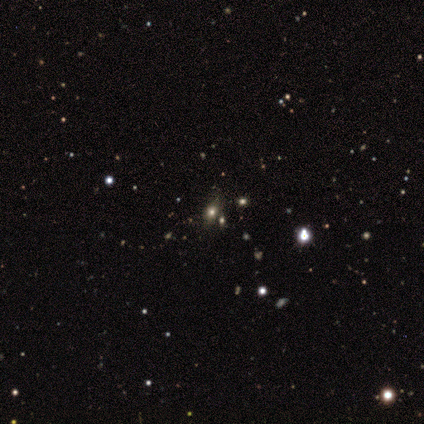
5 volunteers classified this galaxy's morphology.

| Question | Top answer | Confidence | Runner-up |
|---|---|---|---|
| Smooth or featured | star or artifact | 80% | smooth (20%) |